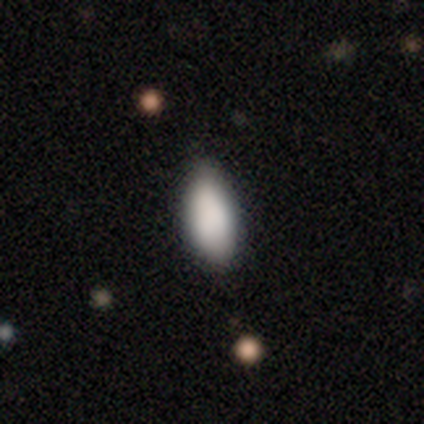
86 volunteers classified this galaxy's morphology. Q: Smooth or featured?
A: smooth (90%); runner-up: star or artifact (7%)
Q: How rounded?
A: in between (87%); runner-up: cigar-shaped (10%)
Q: Merging?
A: none (81%); runner-up: minor disturbance (18%)